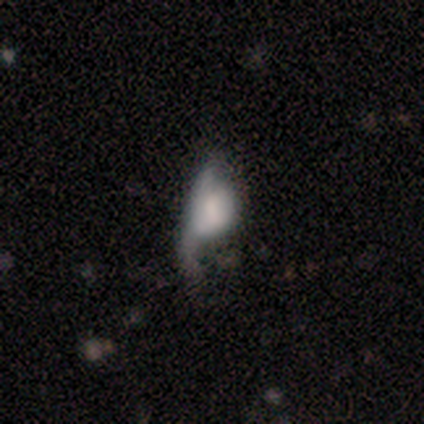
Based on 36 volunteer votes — Morphology: type=smooth (47%); roundness=in between (82%); merging=major disturbance (55%).